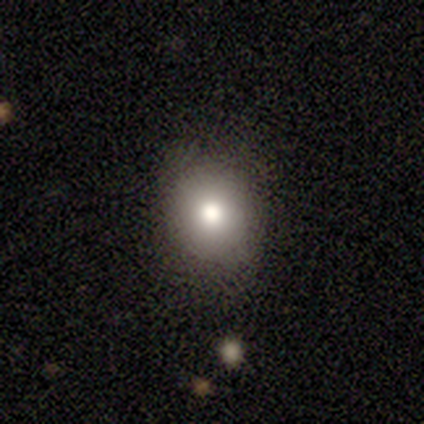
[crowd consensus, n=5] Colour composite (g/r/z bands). It shows a smooth galaxy with no disk features (60%) that is round (67%). Merging: none (75%).